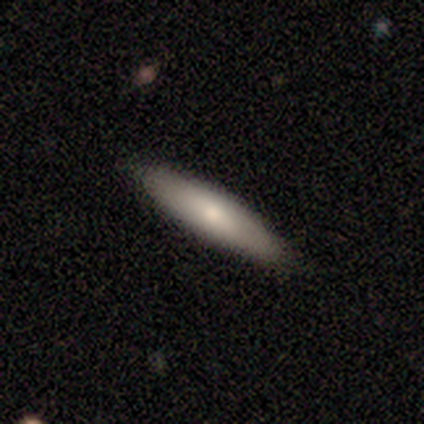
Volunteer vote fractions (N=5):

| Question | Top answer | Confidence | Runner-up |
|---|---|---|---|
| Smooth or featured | featured or disk | 60% | smooth (40%) |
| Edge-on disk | yes | 100% | — |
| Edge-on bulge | none | 67% | rounded (33%) |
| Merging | none | 100% | — |